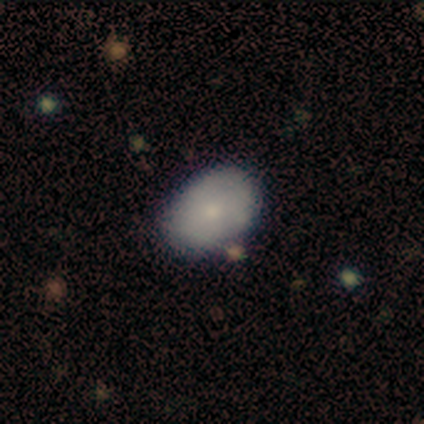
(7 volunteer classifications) smooth-or-featured: smooth: 86% | featured or disk: 14% | star or artifact: 0%
  how-rounded: in between: 83% | round: 17% | cigar-shaped: 0%
  merging: none: 71% | minor disturbance: 14% | merger: 14% | major disturbance: 0%